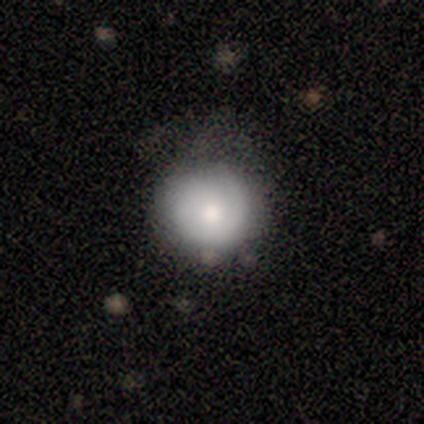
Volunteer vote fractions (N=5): Morphology: type=smooth (100%); roundness=round (100%); merging=none (60%).